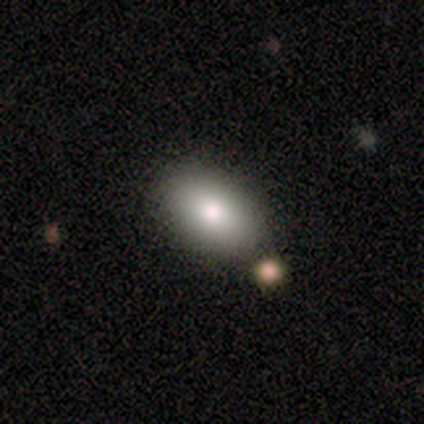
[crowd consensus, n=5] Overall: smooth (100%). How rounded: in between (100%). Merging: none (60%; minor disturbance 20%).